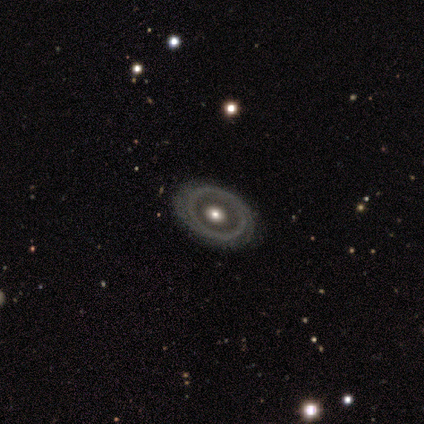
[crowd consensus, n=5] A smooth galaxy with no disk features (40%, tied with featured or disk) that is round (50%, tied with in between).

Vote fractions:
- Smooth or featured? smooth: 40% (tied) / featured or disk: 40% (tied) / star or artifact: 20%
- How rounded? round: 50% (tied) / in between: 50% (tied) / cigar-shaped: 0%
- Merging? none: 75% / minor disturbance: 25% / major disturbance: 0% / merger: 0%